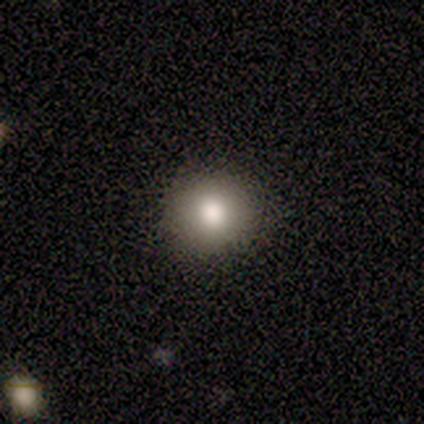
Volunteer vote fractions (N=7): Smooth or featured? 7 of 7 (100%) said smooth. How rounded? 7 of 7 (100%) said round. Merging? 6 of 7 (86%) said none.